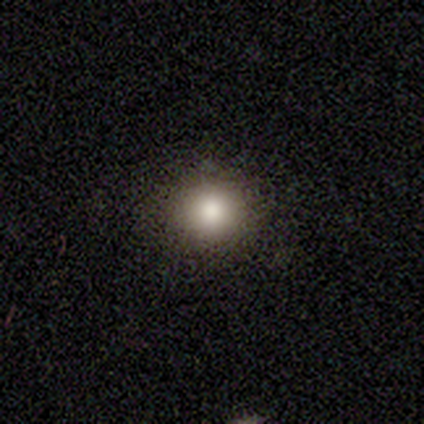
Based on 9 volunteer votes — Smooth or featured? 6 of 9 (67%) said smooth. How rounded? 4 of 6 (67%) said round. Merging? 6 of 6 (100%) said none.